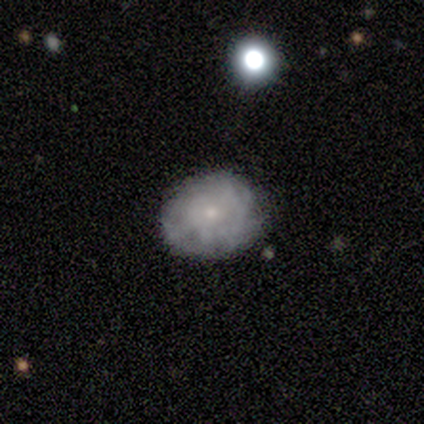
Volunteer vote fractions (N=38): featured or disk 55%, smooth 42%, star or artifact 3%. Down the decision tree: edge-on disk — no (95%); bar — no (95%); spiral arms — yes (60%); spiral arm count — can't tell (58%); spiral winding — tight (83%); bulge size — small (85%); merging — none (76%).